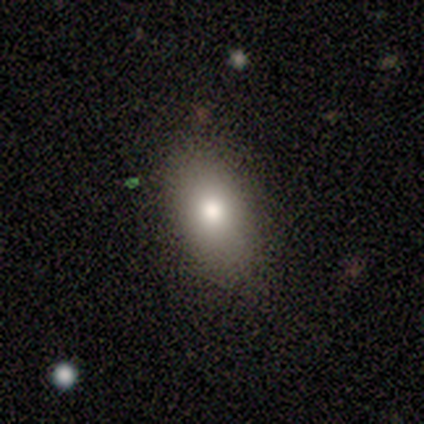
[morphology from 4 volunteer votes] type=smooth (100%); roundness=in between (100%); merging=none (100%).